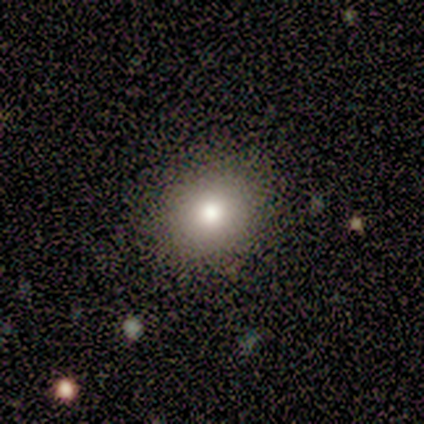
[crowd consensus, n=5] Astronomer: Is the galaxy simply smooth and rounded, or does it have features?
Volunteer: smooth — 80%.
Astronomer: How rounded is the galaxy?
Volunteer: round — 75%.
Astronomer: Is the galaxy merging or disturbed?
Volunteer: none — 100%.